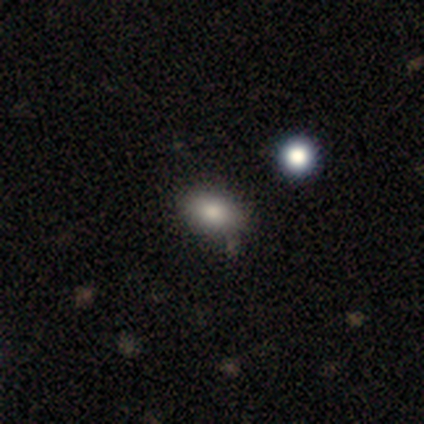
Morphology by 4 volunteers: Q: Smooth or featured?
A: smooth (100%)
Q: How rounded?
A: in between (100%)
Q: Merging?
A: none (100%)